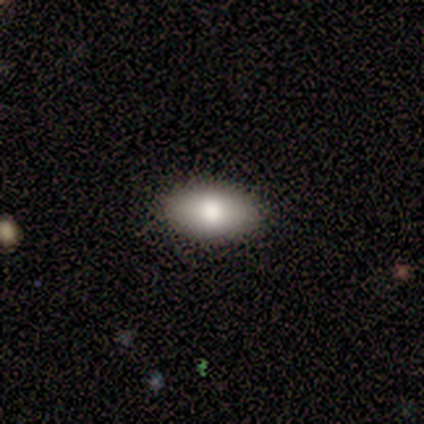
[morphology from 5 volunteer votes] A smooth galaxy with no disk features (80%) that is in between round and cigar-shaped (75%).

Vote fractions:
- Smooth or featured? smooth: 80% / star or artifact: 20% / featured or disk: 0%
- How rounded? in between: 75% / round: 25% / cigar-shaped: 0%
- Merging? none: 100% / minor disturbance: 0% / major disturbance: 0% / merger: 0%